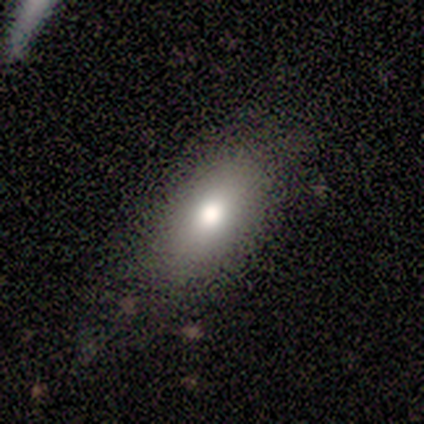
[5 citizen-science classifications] Smooth or featured?
  - smooth: 60% *
  - featured or disk: 20%
  - star or artifact: 20%
How rounded?
  - in between: 100% *
  - round: 0%
  - cigar-shaped: 0%
Merging?
  - none: 100% *
  - minor disturbance: 0%
  - major disturbance: 0%
  - merger: 0%